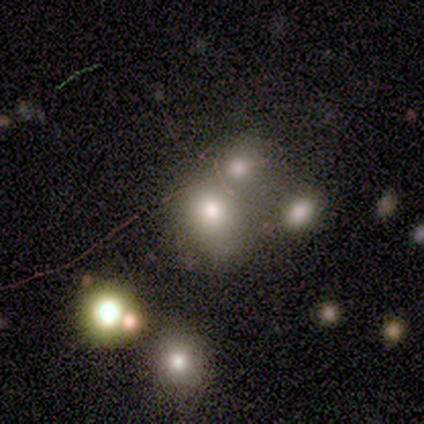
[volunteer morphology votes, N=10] A featured or disk galaxy (50%) with no bar (80%), no spiral arms (100%) and a dominant central bulge (40%, tied with large).

Vote fractions:
- Smooth or featured? featured or disk: 50% / smooth: 40% / star or artifact: 10%
- Edge-on disk? no: 100% / yes: 0%
- Bar? no: 80% / weak: 20% / strong: 0%
- Spiral arms? no: 100% / yes: 0%
- Bulge size? dominant: 40% (tied) / large: 40% (tied) / none: 20% / moderate: 0% / small: 0%
- Merging? none: 56% / minor disturbance: 22% / merger: 22% / major disturbance: 0%